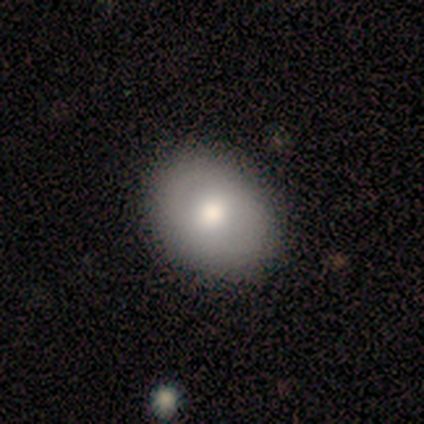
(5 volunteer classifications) Smooth or featured: smooth — 80% (featured or disk — 20%)
How rounded: in between — 100%
Merging: none — 60% (minor disturbance — 20%)